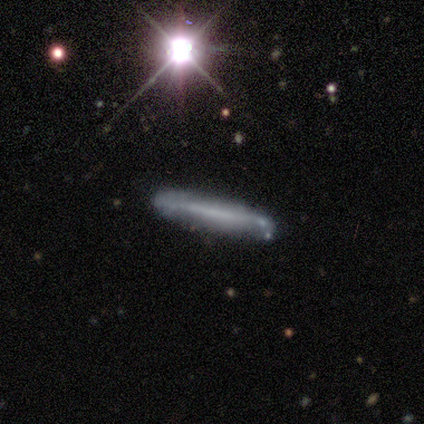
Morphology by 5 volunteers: This appears to be a featured or disk galaxy (60%) viewed edge-on (100%) with no central bulge (100%). Merging: none (75%).